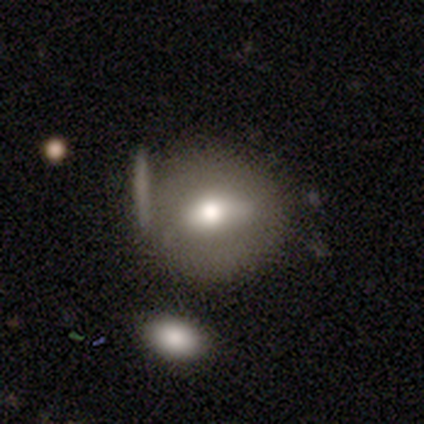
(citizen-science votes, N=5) Smooth or featured: smooth — 80% (featured or disk — 20%)
How rounded: in between — 75% (round — 25%)
Merging: minor disturbance — 60% (none — 40%)